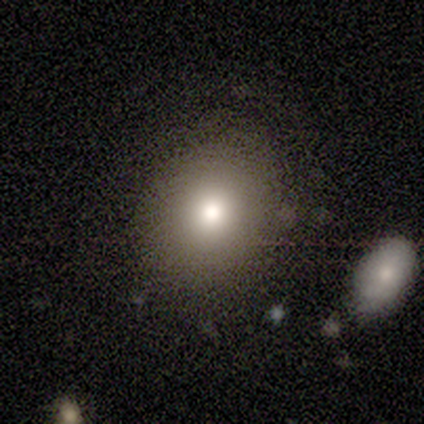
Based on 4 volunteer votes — smooth-or-featured: smooth: 100% | featured or disk: 0% | star or artifact: 0%
  how-rounded: round: 50% (tied) | in between: 50% (tied) | cigar-shaped: 0%
  merging: none: 75% | minor disturbance: 25% | major disturbance: 0% | merger: 0%